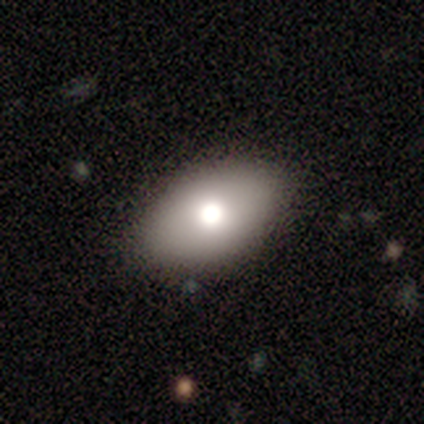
Q: Smooth or featured?
A: smooth (40%); tied with: star or artifact (40%)
Q: How rounded?
A: in between (100%)
Q: Merging?
A: none (67%); runner-up: minor disturbance (33%)